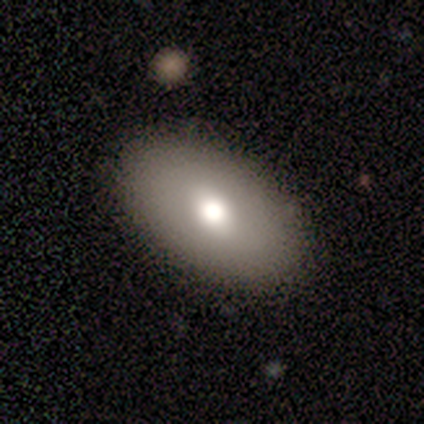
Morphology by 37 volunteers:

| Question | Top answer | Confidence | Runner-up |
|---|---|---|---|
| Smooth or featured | smooth | 65% | featured or disk (27%) |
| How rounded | in between | 96% | cigar-shaped (4%) |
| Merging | none | 91% | minor disturbance (6%) |